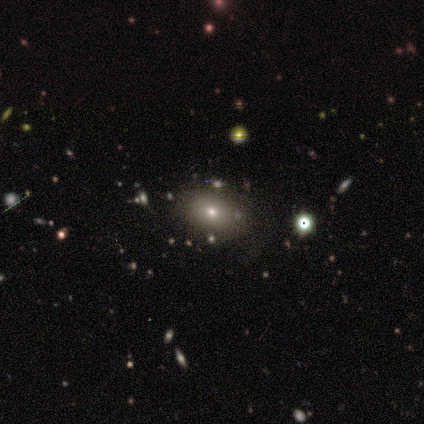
Q: Smooth or featured?
A: smooth (63%); runner-up: featured or disk (26%)
Q: How rounded?
A: in between (92%); runner-up: round (8%)
Q: Merging?
A: none (76%); runner-up: minor disturbance (18%)